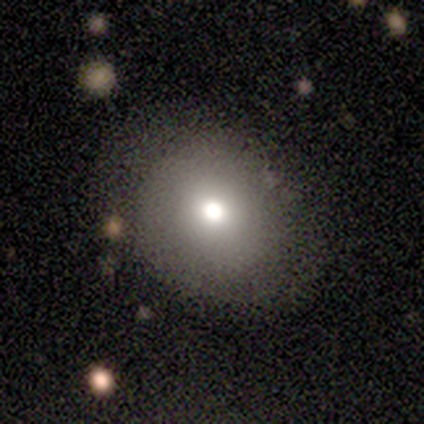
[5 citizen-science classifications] This appears to be a smooth galaxy with no disk features (60%) that is in between round and cigar-shaped (67%). Merging: none (75%).